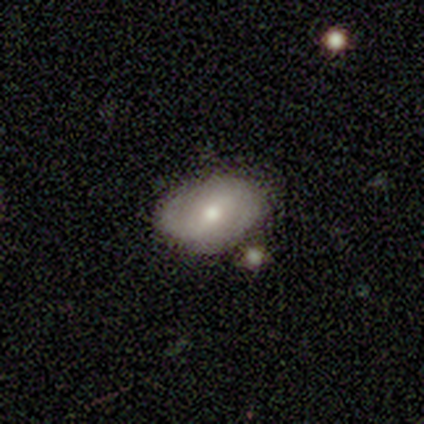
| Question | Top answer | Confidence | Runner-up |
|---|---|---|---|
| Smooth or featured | featured or disk | 75% | smooth (25%) |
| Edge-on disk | no | 100% | — |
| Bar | strong | 33% | tied: weak (33%), no (33%) |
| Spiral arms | yes | 67% | no (33%) |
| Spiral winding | loose | 100% | — |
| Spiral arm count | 2 | 100% | — |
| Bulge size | moderate | 100% | — |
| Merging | none | 100% | — |